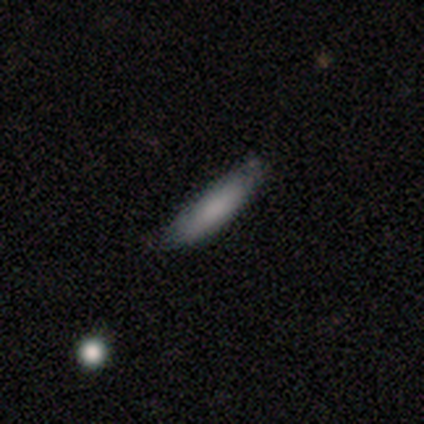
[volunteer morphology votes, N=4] featured or disk 75%, smooth 25%, star or artifact 0%. Down the decision tree: edge-on disk — no (100%); bar — no (100%); spiral arms — no (67%); bulge size — none (100%); merging — none (50%, tied with minor disturbance).